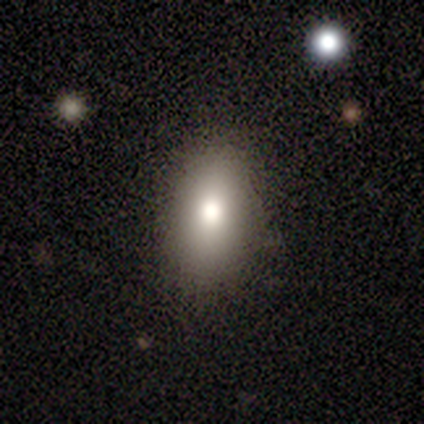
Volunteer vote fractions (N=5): smooth-or-featured: smooth: 80% | featured or disk: 20% | star or artifact: 0%
  how-rounded: in between: 75% | round: 25% | cigar-shaped: 0%
  merging: none: 80% | major disturbance: 20% | minor disturbance: 0% | merger: 0%